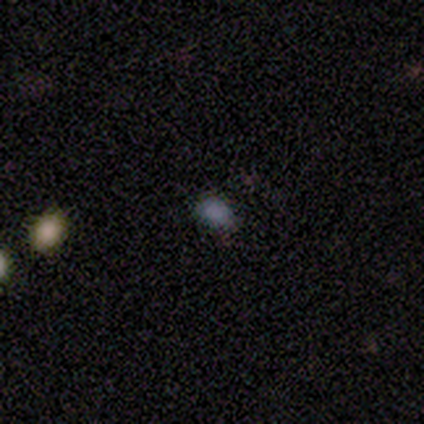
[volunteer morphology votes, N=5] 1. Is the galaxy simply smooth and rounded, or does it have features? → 100% smooth, 0% featured or disk, 0% star or artifact.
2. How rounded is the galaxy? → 100% in between, 0% round, 0% cigar-shaped.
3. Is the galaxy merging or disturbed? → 80% none, 20% minor disturbance, 0% major disturbance, 0% merger.